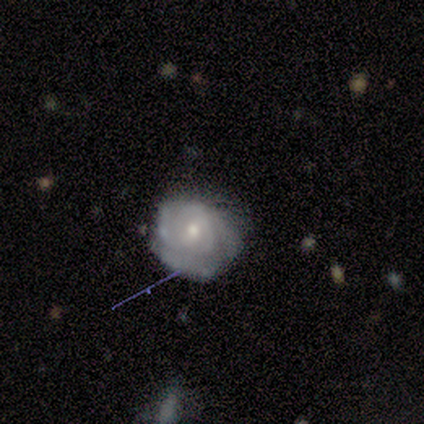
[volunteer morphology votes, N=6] smooth-or-featured: featured or disk: 83% | star or artifact: 17% | smooth: 0%
  disk-edge-on: no: 100% | yes: 0%
    bar: no: 80% | weak: 20% | strong: 0%
    has-spiral-arms: yes: 60% | no: 40%
      spiral-winding: tight: 100% | medium: 0% | loose: 0%
      spiral-arm-count: 1: 33% (tied) | 2: 33% (tied) | can't tell: 33% (tied) | 3: 0% | 4: 0% | more than 4: 0%
    bulge-size: small: 60% | moderate: 40% | dominant: 0% | large: 0% | none: 0%
  merging: none: 40% (tied) | minor disturbance: 40% (tied) | major disturbance: 20% | merger: 0%